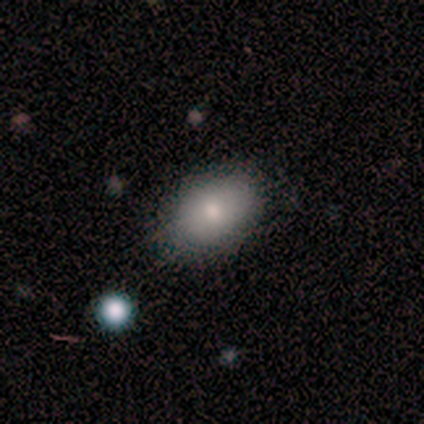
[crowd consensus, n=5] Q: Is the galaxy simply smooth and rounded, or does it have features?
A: smooth — 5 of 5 (100%).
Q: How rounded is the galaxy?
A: in between — 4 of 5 (80%).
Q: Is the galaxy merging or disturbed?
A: none — 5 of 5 (100%).